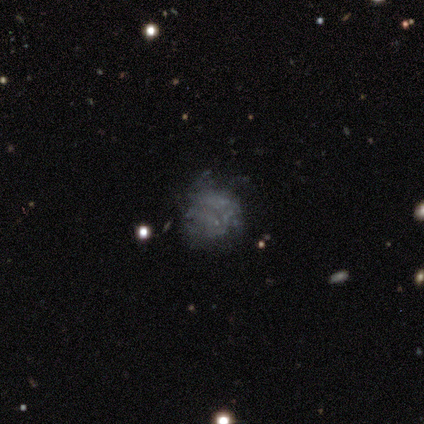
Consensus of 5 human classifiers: Morphology: type=smooth (40%, tied with featured or disk); roundness=round (50%, tied with in between); merging=none (75%).